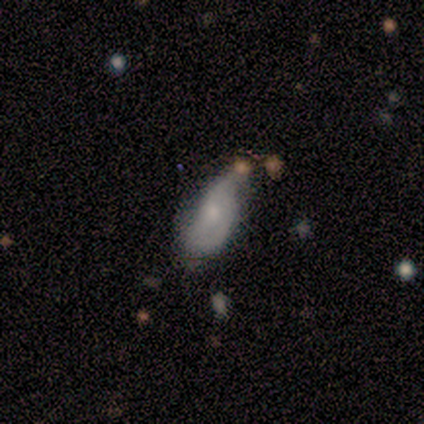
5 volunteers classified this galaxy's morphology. Smooth or featured: featured or disk — 60% (smooth — 40%)
Edge-on disk: no — 100%
Bar: no — 100%
Spiral arms: yes — 100%
Spiral winding: medium — 67% (loose — 33%)
Spiral arm count: 1 — 33% (tied with 2 — 33%; can't tell — 33%)
Bulge size: small — 67% (moderate — 33%)
Merging: minor disturbance — 40% (tied with major disturbance — 40%)